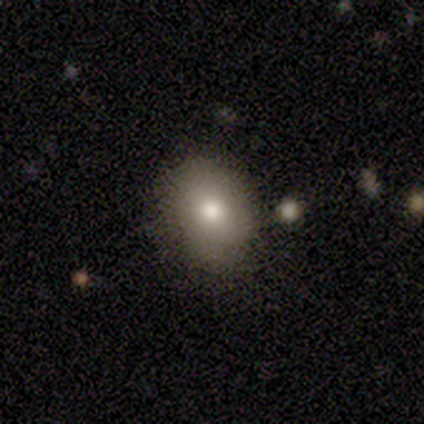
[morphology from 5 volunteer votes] A smooth galaxy with no disk features (100%) that is in between round and cigar-shaped (60%).

Vote fractions:
- Smooth or featured? smooth: 100% / featured or disk: 0% / star or artifact: 0%
- How rounded? in between: 60% / round: 40% / cigar-shaped: 0%
- Merging? none: 60% / minor disturbance: 40% / major disturbance: 0% / merger: 0%